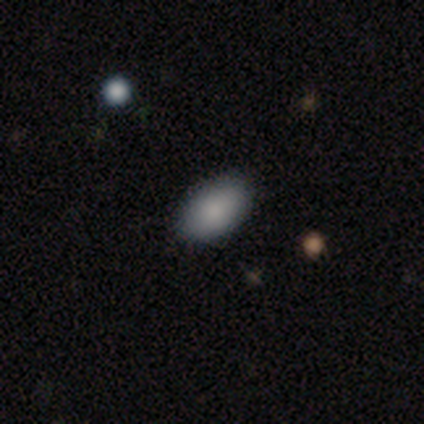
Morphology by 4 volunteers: This appears to be a smooth galaxy with no disk features (75%) that is in between round and cigar-shaped (100%). Merging: none (100%).